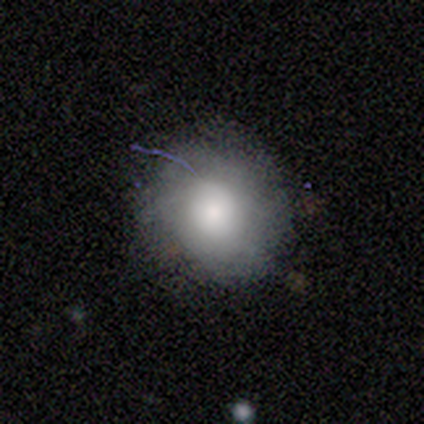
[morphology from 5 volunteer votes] Overall: smooth (100%). How rounded: round (100%). Merging: none (60%; minor disturbance 20%).